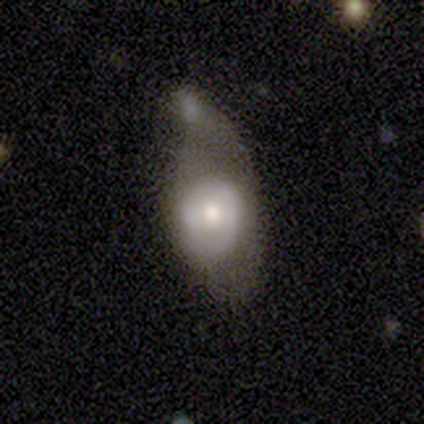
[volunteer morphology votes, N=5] Volunteers were most divided on "merging" (2-way tie): none: 40%, major disturbance: 40%, minor disturbance: 20%, merger: 0%. More confident: spiral arms — no (100%); smooth or featured — featured or disk (80%); edge-on disk — no (75%); bar — no (67%); bulge size — moderate (67%).